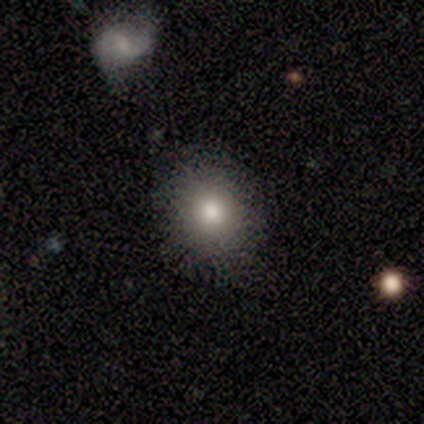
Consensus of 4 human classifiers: Smooth or featured: smooth — 100%
How rounded: round — 100%
Merging: none — 100%